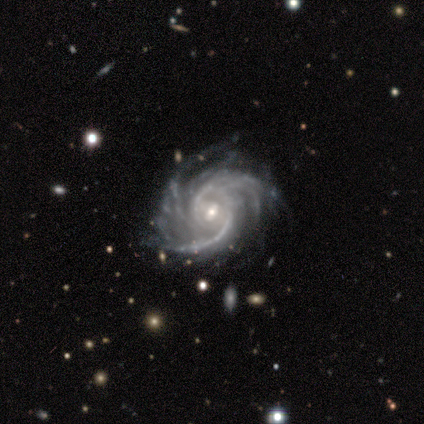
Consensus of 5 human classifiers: This is clearly a featured or disk galaxy (100%). It is clearly not viewed edge-on (100%). Bar: likely no (60%). Spiral arm pattern: clearly yes (100%). Spiral arm count: likely more than 4 (60%). Spiral winding: likely tight (60%). Central bulge: likely small (60%). Merging: clearly none (80%).